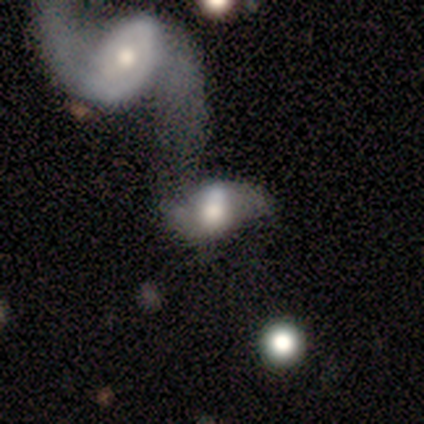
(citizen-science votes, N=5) This appears to be a featured or disk galaxy (60%) with no bar (67%), no spiral arms (67%) and a moderate central bulge (67%). Merging: merger (75%).